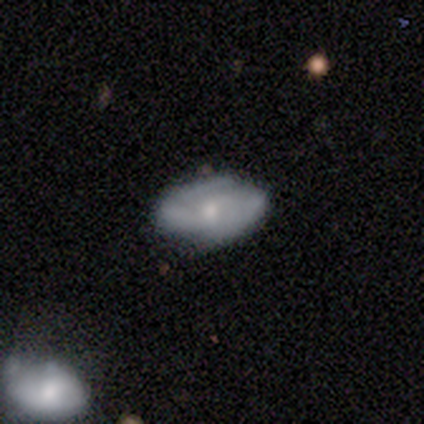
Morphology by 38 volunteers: This is possibly a featured or disk galaxy (58%). It is clearly not viewed edge-on (95%). Bar: likely no (71%). Spiral arm pattern: clearly yes (86%). Spiral arm count: likely 2 (61%). Spiral winding: possibly tight (56%). Central bulge: likely moderate (62%). Merging: marginally none (43%).